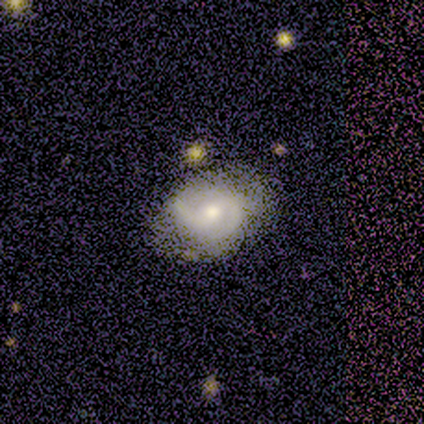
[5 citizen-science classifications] Smooth or featured?
  - featured or disk: 100% *
  - smooth: 0%
  - star or artifact: 0%
Edge-on disk?
  - no: 100% *
  - yes: 0%
Bar?
  - weak: 80% *
  - no: 20%
  - strong: 0%
Spiral arms?
  - yes: 80% *
  - no: 20%
Spiral winding?
  - medium: 75% *
  - loose: 25%
  - tight: 0%
Spiral arm count?
  - 2: 75% *
  - 3: 25%
  - 1: 0%
  - 4: 0%
  - more than 4: 0%
  - can't tell: 0%
Bulge size?
  - moderate: 40% * (tied)
  - small: 40% * (tied)
  - large: 20%
  - dominant: 0%
  - none: 0%
Merging?
  - none: 80% *
  - major disturbance: 20%
  - minor disturbance: 0%
  - merger: 0%